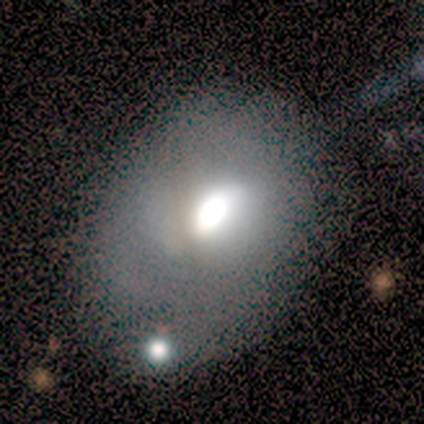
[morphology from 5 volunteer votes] Q: Smooth or featured?
A: featured or disk (80%); runner-up: smooth (20%)
Q: Edge-on disk?
A: no (100%)
Q: Bar?
A: no (75%); runner-up: weak (25%)
Q: Spiral arms?
A: no (100%)
Q: Bulge size?
A: large (50%); tied with: moderate (50%)
Q: Merging?
A: minor disturbance (40%); tied with: merger (40%)